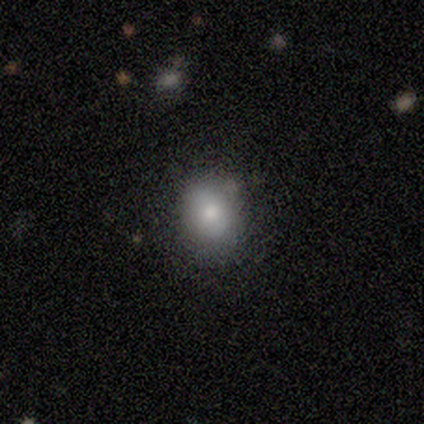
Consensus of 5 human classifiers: Volunteers were most divided on "how rounded": round: 60%, in between: 40%, cigar-shaped: 0%. More confident: smooth or featured — smooth (100%); merging — none (100%).